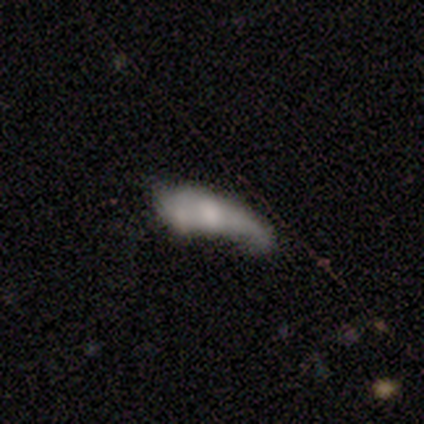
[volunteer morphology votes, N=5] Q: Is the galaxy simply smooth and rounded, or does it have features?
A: smooth — 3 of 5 (60%).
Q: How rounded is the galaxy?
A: in between — 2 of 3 (67%).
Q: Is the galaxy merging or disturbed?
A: merger — 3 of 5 (60%).